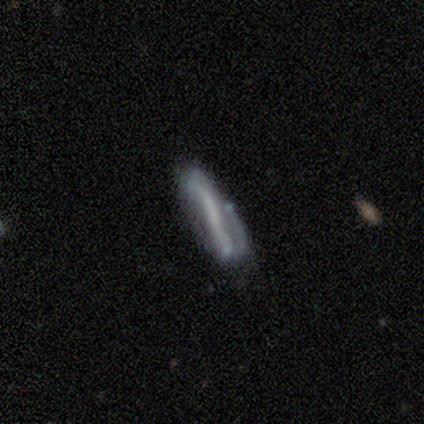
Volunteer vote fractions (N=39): A featured or disk galaxy (77%) with a strong bar (62%), no spiral arms (76%) and no central bulge (86%).

Vote fractions:
- Smooth or featured? featured or disk: 77% / smooth: 23% / star or artifact: 0%
- Edge-on disk? no: 70% / yes: 30%
- Bar? strong: 62% / no: 33% / weak: 5%
- Spiral arms? no: 76% / yes: 24%
- Bulge size? none: 86% / small: 10% / moderate: 5% / dominant: 0% / large: 0%
- Merging? none: 46% / minor disturbance: 28% / major disturbance: 18% / merger: 8%